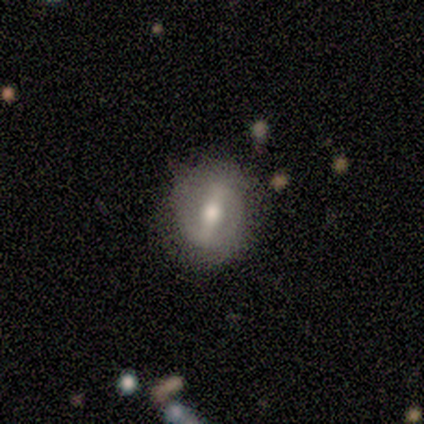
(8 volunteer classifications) featured or disk 75%, smooth 25%, star or artifact 0%. Down the decision tree: edge-on disk — no (100%); bar — strong (50%, tied with weak); spiral arms — yes (50%, tied with no); spiral arm count — can't tell (67%); spiral winding — tight (33%, tied with medium and loose); bulge size — moderate (67%); merging — none (75%).